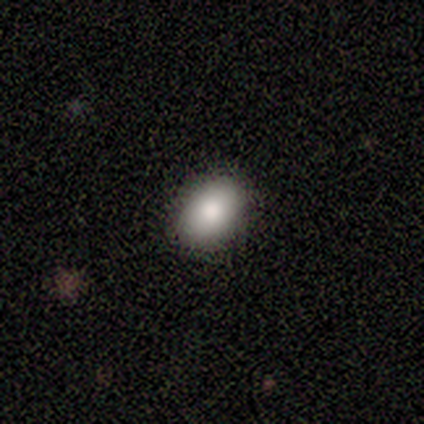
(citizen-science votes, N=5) Smooth or featured: smooth — 80% (featured or disk — 20%)
How rounded: in between — 75% (round — 25%)
Merging: none — 60% (minor disturbance — 40%)